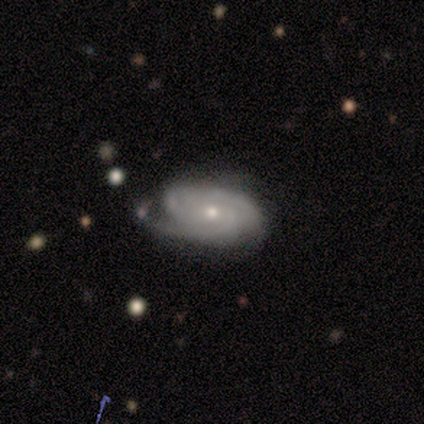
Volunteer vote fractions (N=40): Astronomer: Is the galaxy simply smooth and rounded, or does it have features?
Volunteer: featured or disk — 85%.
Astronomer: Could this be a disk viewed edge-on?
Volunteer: no — 94%.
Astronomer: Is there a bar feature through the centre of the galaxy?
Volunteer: no — 84%.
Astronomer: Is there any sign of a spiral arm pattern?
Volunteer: yes — 100%.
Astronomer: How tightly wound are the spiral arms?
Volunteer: tight — 75%.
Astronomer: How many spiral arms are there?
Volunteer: can't tell — 38% (runner-up: 2, 25%).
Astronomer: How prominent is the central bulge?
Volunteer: moderate — 53% (runner-up: small, 47%).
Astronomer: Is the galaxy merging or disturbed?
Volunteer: none — 56%.